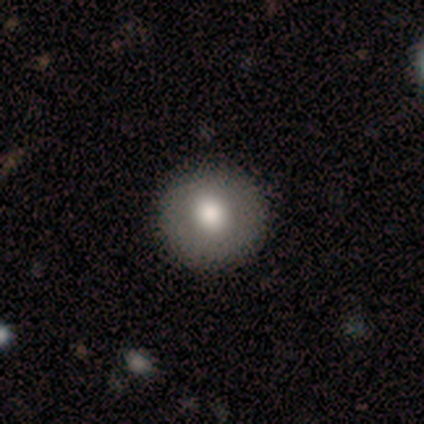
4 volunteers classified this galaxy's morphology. Smooth or featured? 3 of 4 (75%) said smooth. How rounded? 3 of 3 (100%) said round. Merging? 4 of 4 (100%) said none.